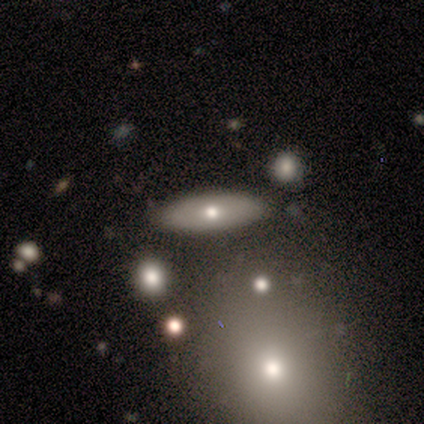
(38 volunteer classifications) Volunteers were most divided on "smooth or featured": smooth: 63%, featured or disk: 24%, star or artifact: 13%. More confident: merging — none (88%); how rounded — in between (79%).